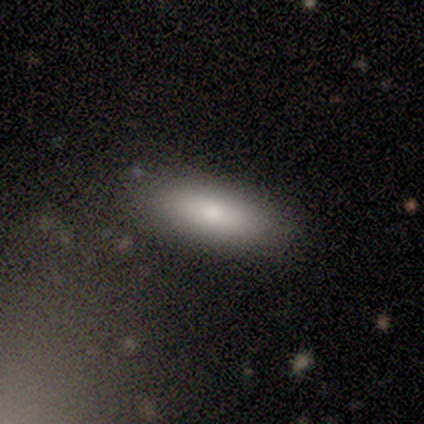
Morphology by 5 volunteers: smooth_or_featured: smooth (p=1.00)
how_rounded: in between (p=0.60) [alt: cigar-shaped p=0.40]
merging: none (p=1.00)